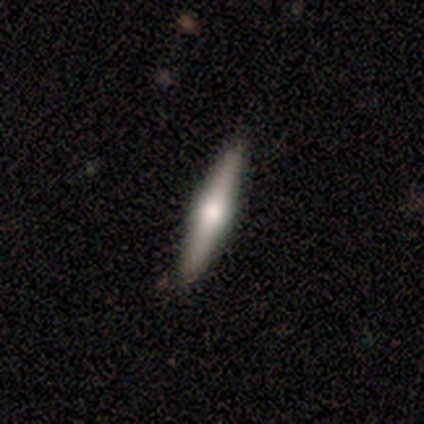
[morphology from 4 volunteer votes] Smooth or featured? 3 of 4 (75%) said featured or disk. Edge-on disk? 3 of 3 (100%) said yes. Edge-on bulge? 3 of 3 (100%) said rounded. Merging? 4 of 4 (100%) said none.